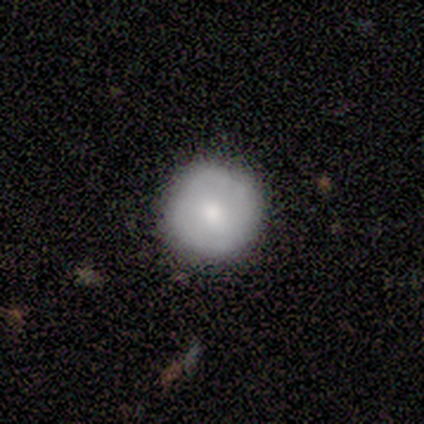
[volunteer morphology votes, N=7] Volunteers were most divided on "smooth or featured": smooth: 57%, featured or disk: 43%, star or artifact: 0%. More confident: how rounded — round (100%); merging — none (71%).